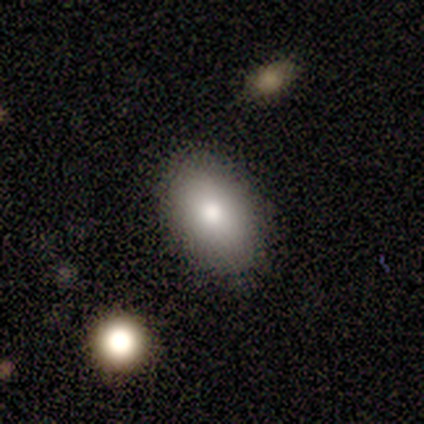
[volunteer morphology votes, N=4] Overall: smooth (100%). How rounded: in between (100%). Merging: none (100%).